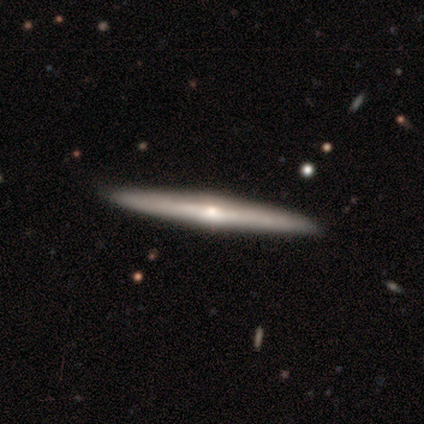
A featured or disk galaxy (60%) viewed edge-on (100%) with a rounded central bulge (78%).

Vote fractions:
- Smooth or featured? featured or disk: 60% / smooth: 40% / star or artifact: 0%
- Edge-on disk? yes: 100% / no: 0%
- Edge-on bulge? rounded: 78% / none: 22% / boxy: 0%
- Merging? none: 100% / minor disturbance: 0% / major disturbance: 0% / merger: 0%